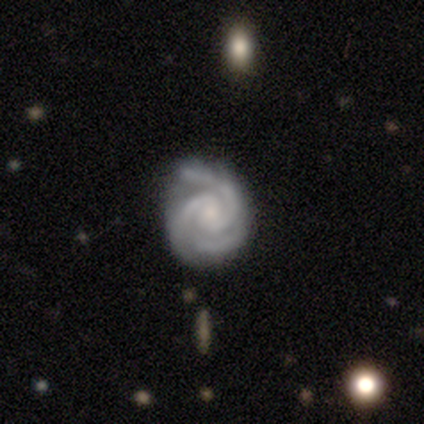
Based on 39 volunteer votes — Smooth or featured? featured or disk (90%)
Edge-on disk? no (100%)
Bar? no (60%)
Spiral arms? yes (97%)
Spiral winding? tight (74%)
Spiral arm count? 3 (65%)
Bulge size? small (63%)
Merging? none (71%)